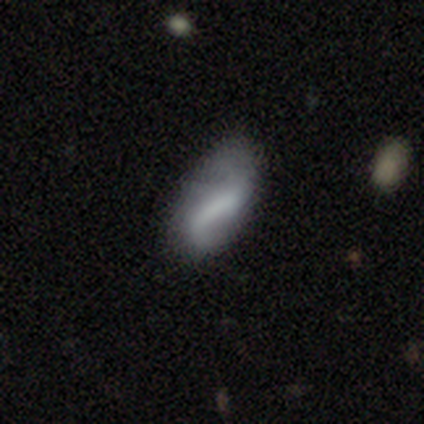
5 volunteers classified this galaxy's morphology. Smooth or featured? featured or disk (80%)
Edge-on disk? no (100%)
Bar? weak (50%)
Spiral arms? yes (50%, tied with no)
Spiral winding? medium (100%)
Spiral arm count? 2 (100%)
Bulge size? none (75%)
Merging? none (60%)